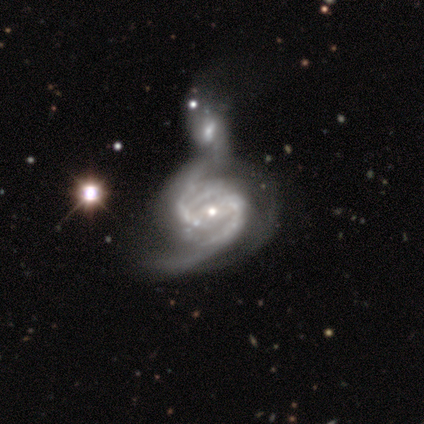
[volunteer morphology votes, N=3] Smooth or featured?
  - featured or disk: 100% *
  - smooth: 0%
  - star or artifact: 0%
Edge-on disk?
  - no: 100% *
  - yes: 0%
Bar?
  - strong: 67% *
  - weak: 33%
  - no: 0%
Spiral arms?
  - yes: 100% *
  - no: 0%
Spiral winding?
  - tight: 33% * (tied)
  - medium: 33% * (tied)
  - loose: 33% * (tied)
Spiral arm count?
  - 2: 67% *
  - can't tell: 33%
  - 1: 0%
  - 3: 0%
  - 4: 0%
  - more than 4: 0%
Bulge size?
  - small: 67% *
  - large: 33%
  - dominant: 0%
  - moderate: 0%
  - none: 0%
Merging?
  - merger: 100% *
  - none: 0%
  - minor disturbance: 0%
  - major disturbance: 0%